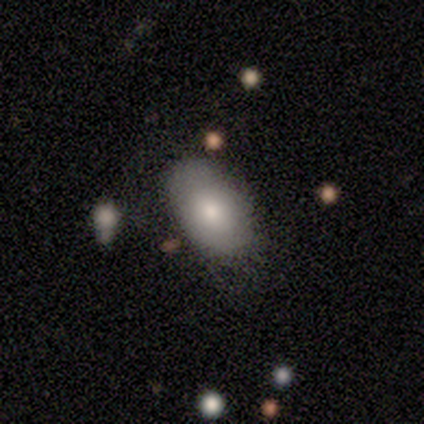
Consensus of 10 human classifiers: Smooth or featured?
  - smooth: 80% *
  - featured or disk: 20%
  - star or artifact: 0%
How rounded?
  - in between: 100% *
  - round: 0%
  - cigar-shaped: 0%
Merging?
  - none: 80% *
  - minor disturbance: 10%
  - merger: 10%
  - major disturbance: 0%